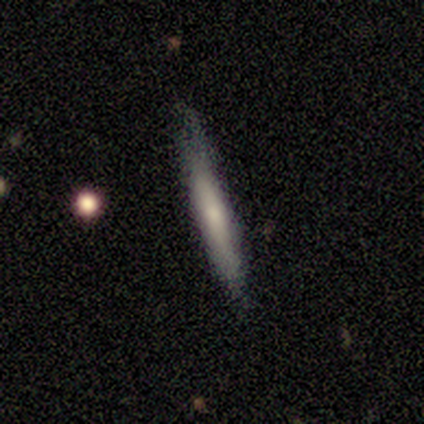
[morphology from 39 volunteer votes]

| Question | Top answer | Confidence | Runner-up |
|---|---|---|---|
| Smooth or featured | smooth | 54% | featured or disk (41%) |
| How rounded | cigar-shaped | 95% | in between (5%) |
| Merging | none | 68% | minor disturbance (27%) |